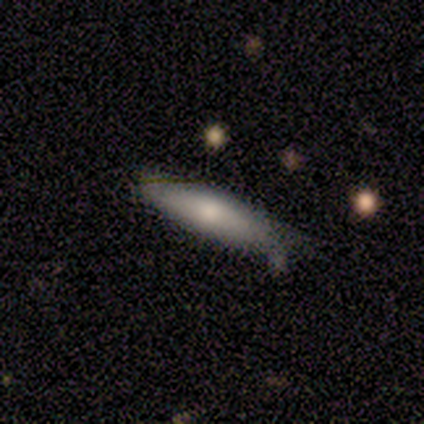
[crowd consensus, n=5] Smooth or featured? 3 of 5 (60%) said smooth. How rounded? 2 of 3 (67%) said cigar-shaped. Merging? 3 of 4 (75%) said none.